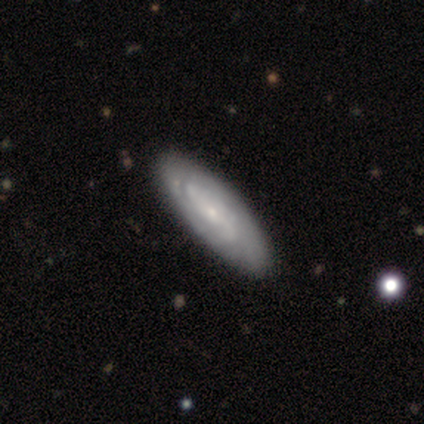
Morphology: type=featured or disk (100%); edge-on=no (100%); bar=no (100%); spiral arms=yes (50%, tied with no); winding=tight (100%); arm count=can't tell (100%); bulge=small (100%); merging=none (50%, tied with minor disturbance).